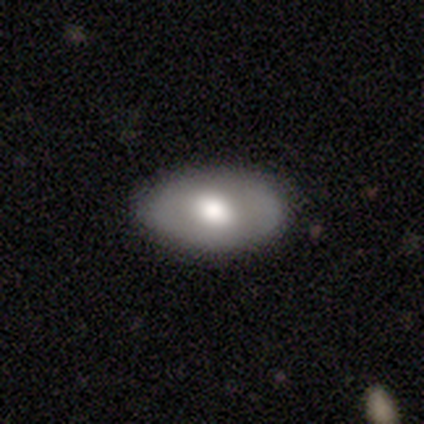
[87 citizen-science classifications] smooth_or_featured: smooth (p=0.60) [alt: featured or disk p=0.33]
how_rounded: in between (p=0.90) [alt: round p=0.10]
merging: none (p=0.80) [alt: minor disturbance p=0.16]